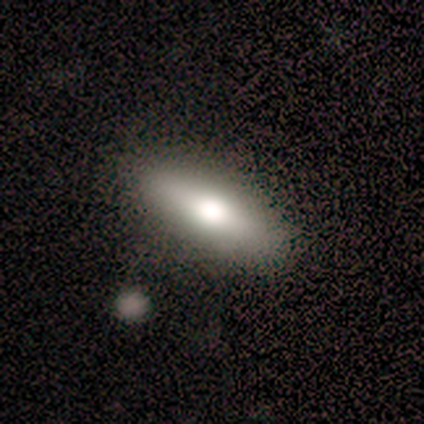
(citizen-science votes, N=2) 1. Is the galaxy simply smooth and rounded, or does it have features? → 100% featured or disk, 0% smooth, 0% star or artifact.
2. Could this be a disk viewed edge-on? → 100% yes, 0% no.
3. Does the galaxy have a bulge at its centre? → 100% rounded, 0% boxy, 0% none.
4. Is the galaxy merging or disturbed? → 50% none (tied), 50% minor disturbance (tied), 0% major disturbance, 0% merger.